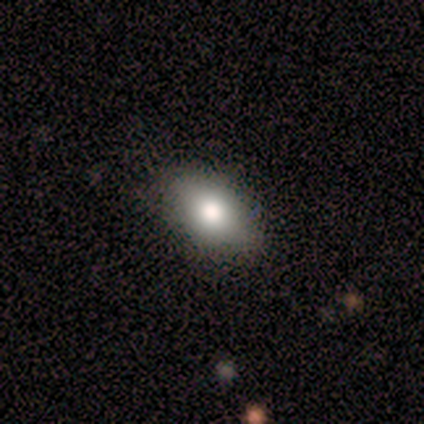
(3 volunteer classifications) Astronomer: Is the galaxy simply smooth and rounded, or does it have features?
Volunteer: smooth — 100%.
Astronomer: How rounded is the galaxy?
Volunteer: in between — 67%.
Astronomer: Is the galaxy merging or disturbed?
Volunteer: minor disturbance — 67%.